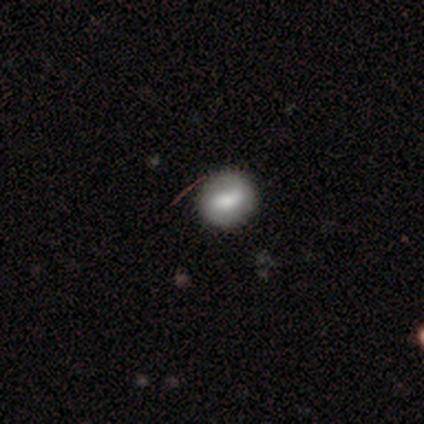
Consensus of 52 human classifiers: smooth 54%, featured or disk 35%, star or artifact 12%. Down the decision tree: how rounded — round (64%); merging — none (85%).